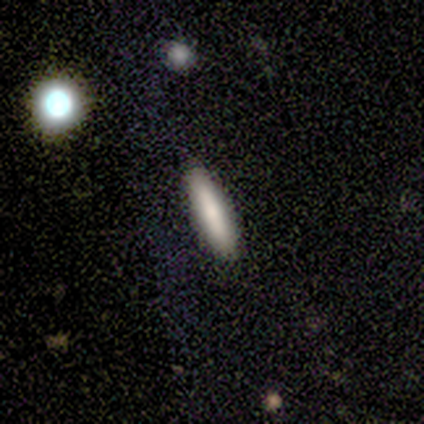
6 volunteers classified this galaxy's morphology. Smooth or featured: smooth — 83% (star or artifact — 17%)
How rounded: cigar-shaped — 80% (in between — 20%)
Merging: none — 100%